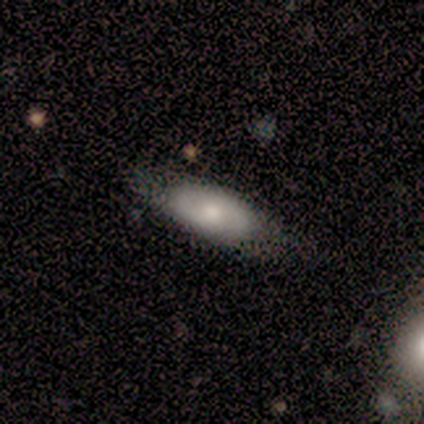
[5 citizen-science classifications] Q: Smooth or featured?
A: smooth (80%); runner-up: featured or disk (20%)
Q: How rounded?
A: in between (100%)
Q: Merging?
A: minor disturbance (60%); runner-up: none (40%)